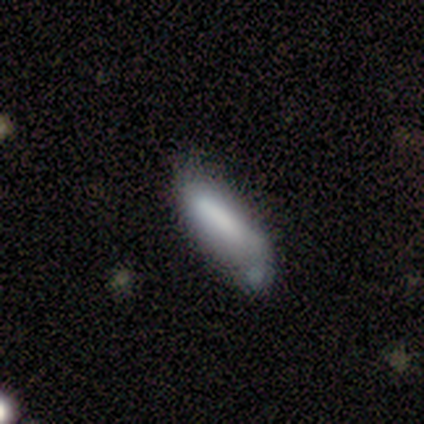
Morphology: type=smooth (71%); roundness=cigar-shaped (60%); merging=minor disturbance (29%, tied with major disturbance and merger).